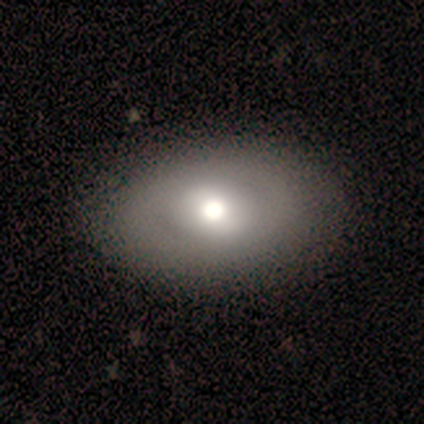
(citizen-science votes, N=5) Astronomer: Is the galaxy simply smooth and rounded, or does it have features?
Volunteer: smooth — 60% (runner-up: featured or disk, 40%).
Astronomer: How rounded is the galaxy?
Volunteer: in between — 67%.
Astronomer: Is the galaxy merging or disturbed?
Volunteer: none — 60% (runner-up: major disturbance, 40%).